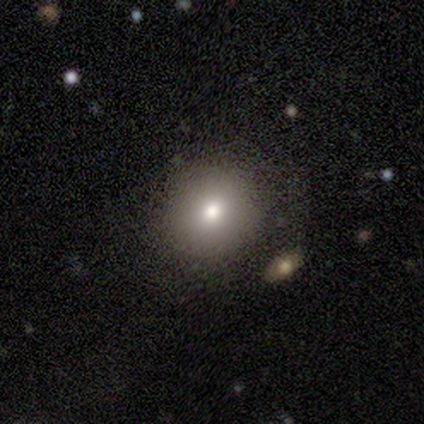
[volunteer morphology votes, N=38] A smooth galaxy with no disk features (74%) that is round (86%).

Vote fractions:
- Smooth or featured? smooth: 74% / featured or disk: 16% / star or artifact: 11%
- How rounded? round: 86% / in between: 14% / cigar-shaped: 0%
- Merging? none: 76% / minor disturbance: 18% / merger: 6% / major disturbance: 0%